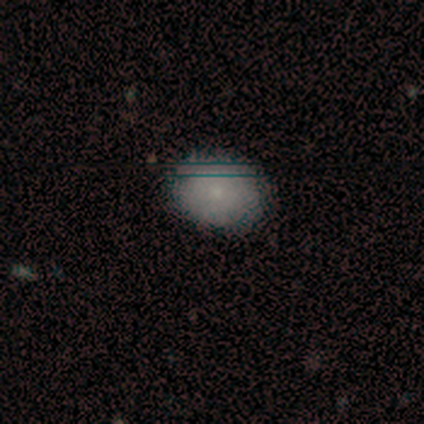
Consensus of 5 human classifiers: This appears to be a smooth galaxy with no disk features (80%) that is round (75%). Merging: none (100%).